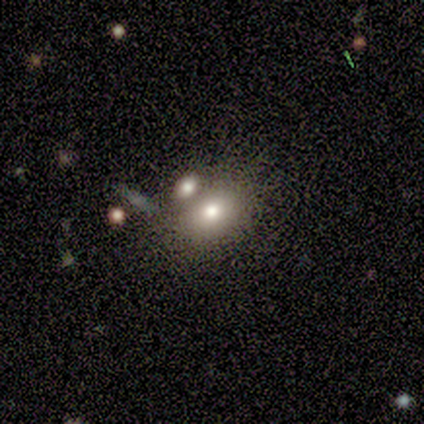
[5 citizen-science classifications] Volunteers were most divided on "merging": none: 60%, major disturbance: 20%, merger: 20%, minor disturbance: 0%. More confident: smooth or featured — smooth (80%); how rounded — in between (75%).